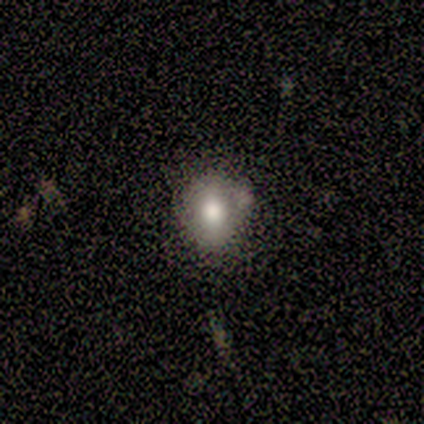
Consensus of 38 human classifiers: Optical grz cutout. It shows a smooth galaxy with no disk features (63%) that is round (71%). Merging: none (55%).